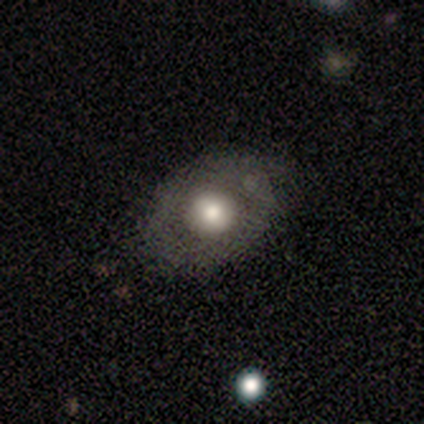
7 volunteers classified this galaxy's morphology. Smooth or featured: smooth — 43% (featured or disk — 29%)
How rounded: round — 67% (in between — 33%)
Merging: none — 100%